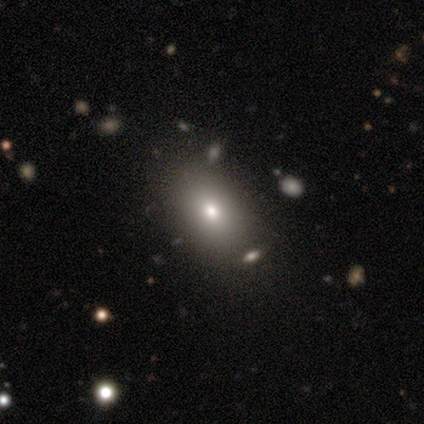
A smooth galaxy with no disk features (75%) that is in between round and cigar-shaped (100%). Merging: none (75%).